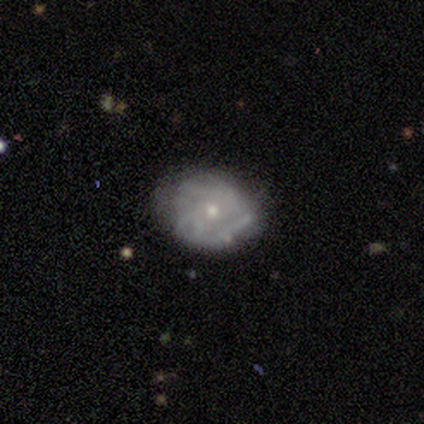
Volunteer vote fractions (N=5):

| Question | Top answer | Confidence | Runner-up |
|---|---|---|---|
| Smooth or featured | featured or disk | 60% | smooth (20%) |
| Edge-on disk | no | 100% | — |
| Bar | no | 100% | — |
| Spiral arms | yes | 67% | no (33%) |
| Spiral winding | tight | 50% | tied: medium (50%) |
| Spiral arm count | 2 | 50% | tied: can't tell (50%) |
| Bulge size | small | 67% | moderate (33%) |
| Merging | none | 100% | — |